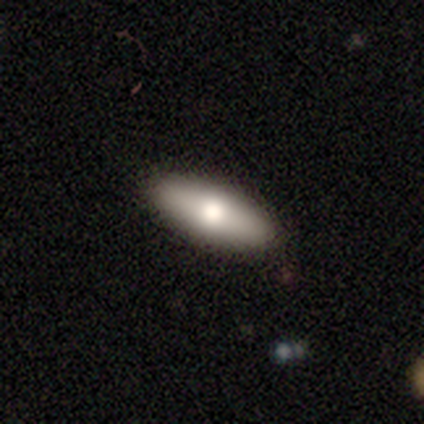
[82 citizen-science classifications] smooth-or-featured: smooth: 65% | featured or disk: 27% | star or artifact: 9%
  how-rounded: in between: 68% | cigar-shaped: 32% | round: 0%
  merging: none: 84% | minor disturbance: 13% | major disturbance: 3% | merger: 0%